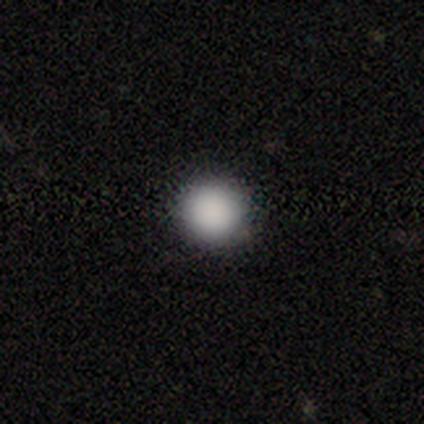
smooth 90%, star or artifact 9%, featured or disk 1%. Down the decision tree: how rounded — round (100%); merging — none (92%).